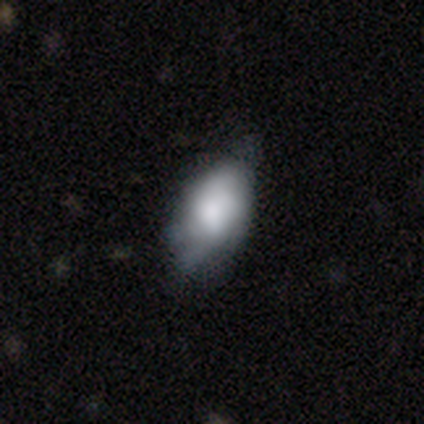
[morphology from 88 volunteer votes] Overall: smooth (64%; featured or disk 30%). How rounded: in between (91%). Merging: minor disturbance (59%; none 29%).